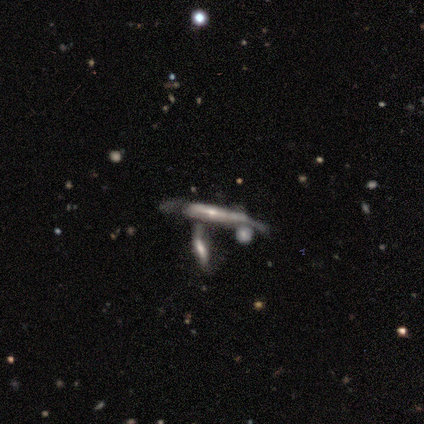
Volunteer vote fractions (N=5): Morphology: type=featured or disk (100%); edge-on=yes (100%); edge-on bulge=rounded (60%); merging=none (80%).